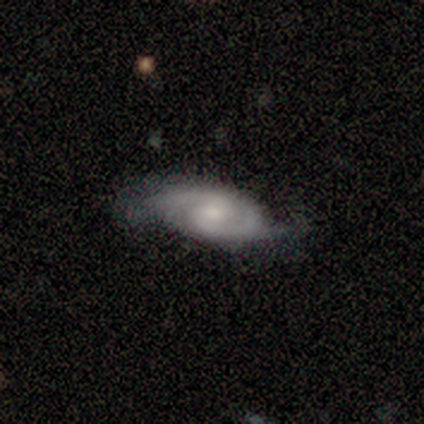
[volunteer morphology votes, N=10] type=featured or disk (100%); edge-on=no (100%); bar=no (60%); spiral arms=yes (90%); winding=medium (56%); arm count=2 (89%); bulge=moderate (60%); merging=none (50%).